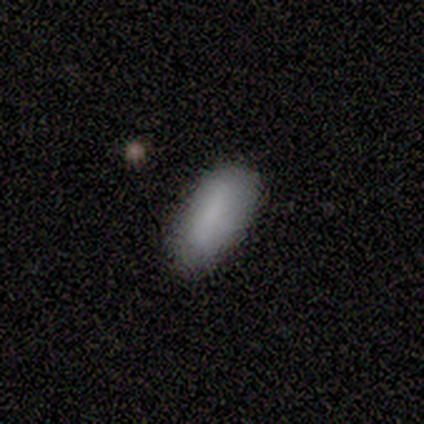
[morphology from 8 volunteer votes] smooth_or_featured: smooth (p=1.00)
how_rounded: in between (p=0.88) [alt: cigar-shaped p=0.12]
merging: none (p=0.88) [alt: minor disturbance p=0.12]